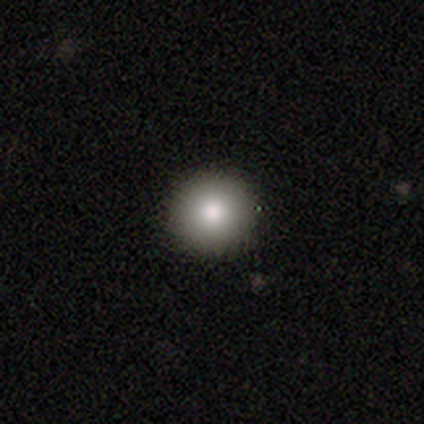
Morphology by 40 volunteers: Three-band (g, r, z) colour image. It shows a smooth galaxy with no disk features (82%) that is round (100%). Merging: none (84%).